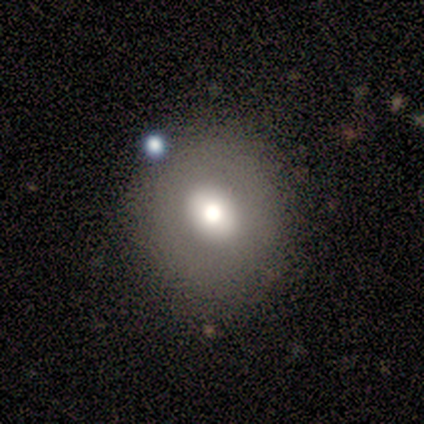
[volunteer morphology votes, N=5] Smooth or featured?
  - smooth: 60% *
  - star or artifact: 40%
  - featured or disk: 0%
How rounded?
  - round: 100% *
  - in between: 0%
  - cigar-shaped: 0%
Merging?
  - none: 100% *
  - minor disturbance: 0%
  - major disturbance: 0%
  - merger: 0%